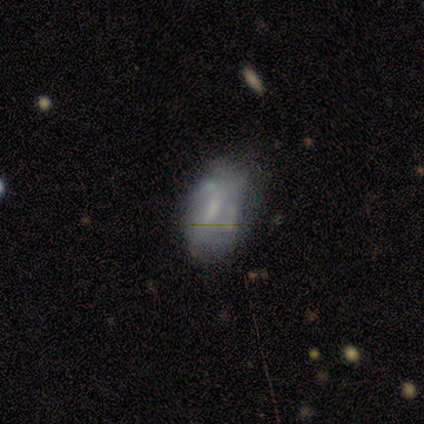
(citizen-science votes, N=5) Smooth or featured?
  - smooth: 60% *
  - featured or disk: 40%
  - star or artifact: 0%
How rounded?
  - in between: 100% *
  - round: 0%
  - cigar-shaped: 0%
Merging?
  - none: 80% *
  - major disturbance: 20%
  - minor disturbance: 0%
  - merger: 0%